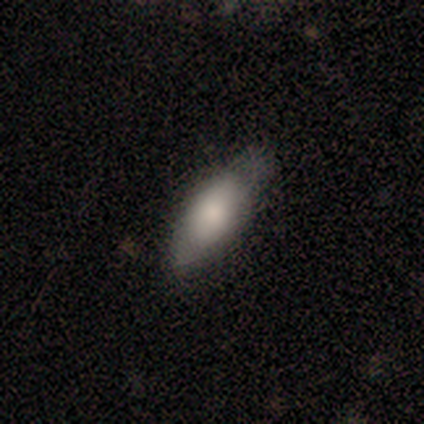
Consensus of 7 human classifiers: A smooth galaxy with no disk features (57%) that is in between round and cigar-shaped (75%).

Vote fractions:
- Smooth or featured? smooth: 57% / featured or disk: 43% / star or artifact: 0%
- How rounded? in between: 75% / cigar-shaped: 25% / round: 0%
- Merging? none: 57% / minor disturbance: 43% / major disturbance: 0% / merger: 0%